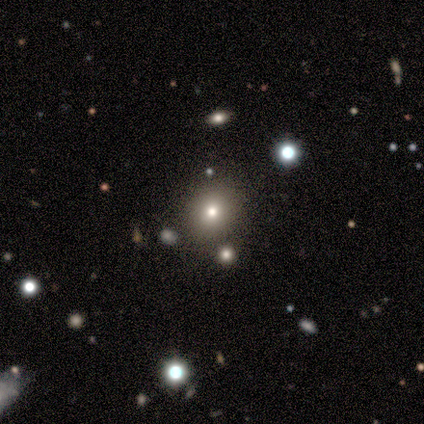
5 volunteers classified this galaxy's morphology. A smooth galaxy with no disk features (100%) that is round (80%). Merging: none (60%).